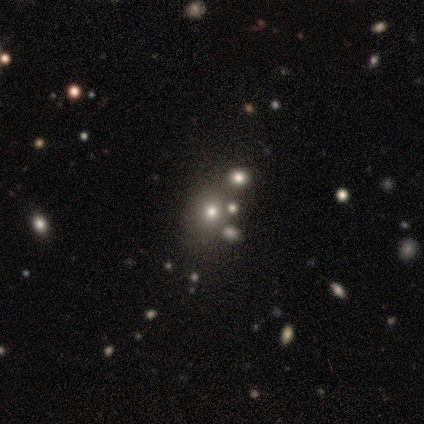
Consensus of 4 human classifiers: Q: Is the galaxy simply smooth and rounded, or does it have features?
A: smooth — 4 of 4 (100%).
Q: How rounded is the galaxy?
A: round — 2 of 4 (50%, tied with in between).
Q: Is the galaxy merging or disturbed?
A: none — 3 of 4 (75%).